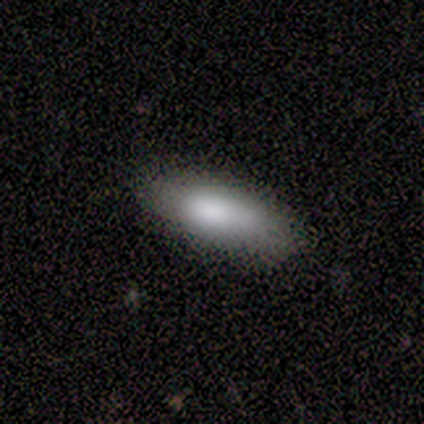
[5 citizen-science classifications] smooth_or_featured: smooth (p=1.00)
how_rounded: in between (p=0.80) [alt: cigar-shaped p=0.20]
merging: none (p=1.00)